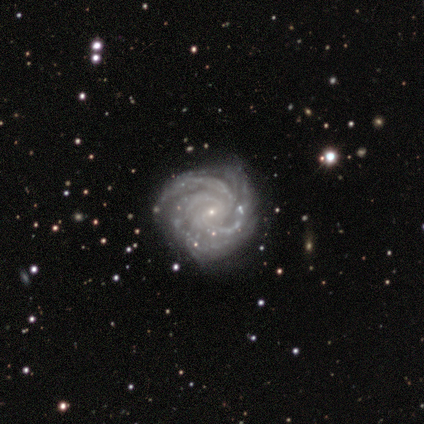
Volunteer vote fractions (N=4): smooth-or-featured: featured or disk: 100% | smooth: 0% | star or artifact: 0%
  disk-edge-on: no: 100% | yes: 0%
    bar: no: 75% | weak: 25% | strong: 0%
    has-spiral-arms: yes: 100% | no: 0%
      spiral-winding: tight: 75% | loose: 25% | medium: 0%
      spiral-arm-count: 3: 50% (tied) | can't tell: 50% (tied) | 1: 0% | 2: 0% | 4: 0% | more than 4: 0%
    bulge-size: small: 75% | none: 25% | dominant: 0% | large: 0% | moderate: 0%
  merging: none: 75% | minor disturbance: 25% | major disturbance: 0% | merger: 0%